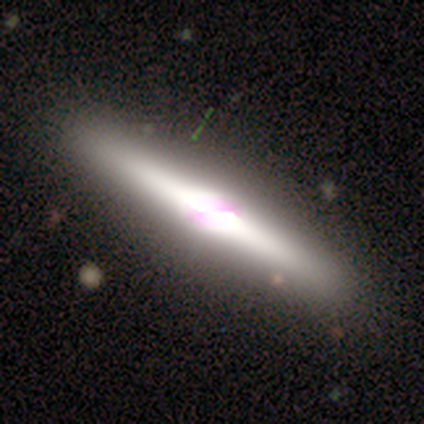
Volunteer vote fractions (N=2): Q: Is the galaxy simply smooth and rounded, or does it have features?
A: star or artifact — 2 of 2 (100%).